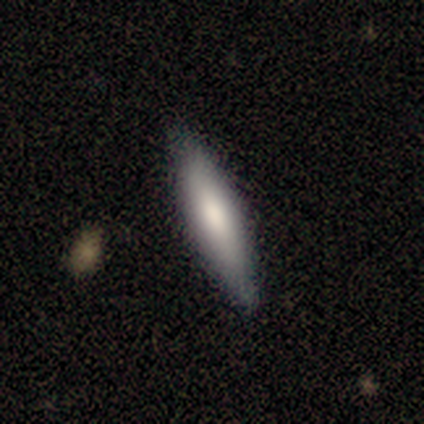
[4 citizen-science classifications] smooth_or_featured: smooth (p=1.00)
how_rounded: cigar-shaped (p=0.75) [alt: in between p=0.25]
merging: none (p=1.00)